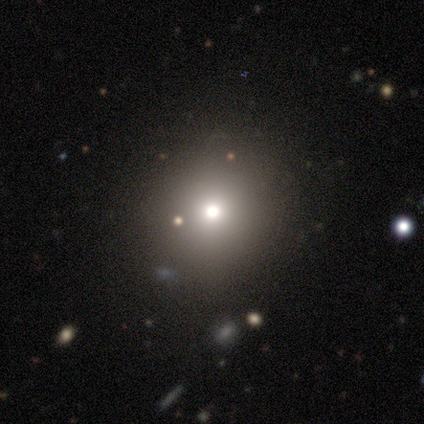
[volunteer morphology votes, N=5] Smooth or featured? 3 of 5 (60%) said star or artifact.